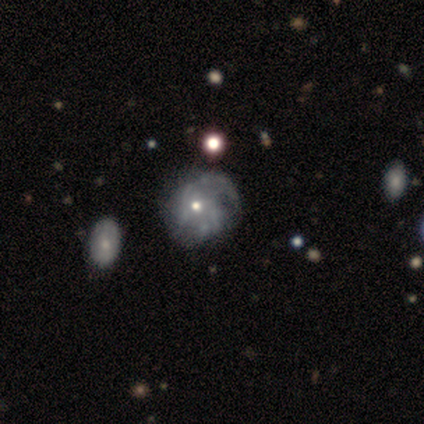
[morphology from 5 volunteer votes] Smooth or featured: featured or disk — 60% (smooth — 20%)
Edge-on disk: no — 100%
Bar: no — 100%
Spiral arms: yes — 67% (no — 33%)
Spiral winding: tight — 50% (tied with loose — 50%)
Spiral arm count: can't tell — 100%
Bulge size: moderate — 67% (small — 33%)
Merging: minor disturbance — 75% (none — 25%)